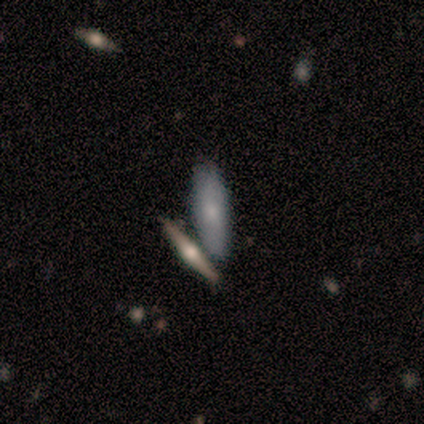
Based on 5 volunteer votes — Q: Smooth or featured?
A: smooth (80%); runner-up: star or artifact (20%)
Q: How rounded?
A: in between (75%); runner-up: cigar-shaped (25%)
Q: Merging?
A: none (50%); tied with: merger (50%)